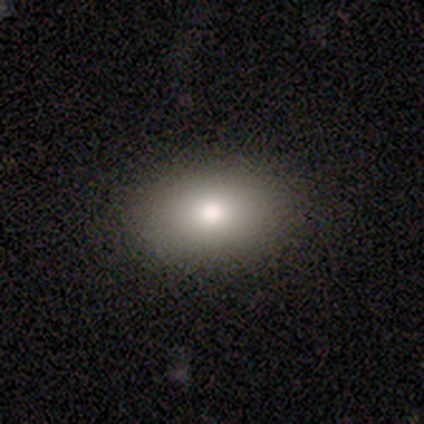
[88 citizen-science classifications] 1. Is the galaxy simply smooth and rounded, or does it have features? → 75% smooth, 14% featured or disk, 11% star or artifact.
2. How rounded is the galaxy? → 76% in between, 24% round, 0% cigar-shaped.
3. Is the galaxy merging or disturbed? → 90% none, 8% minor disturbance, 1% major disturbance, 1% merger.